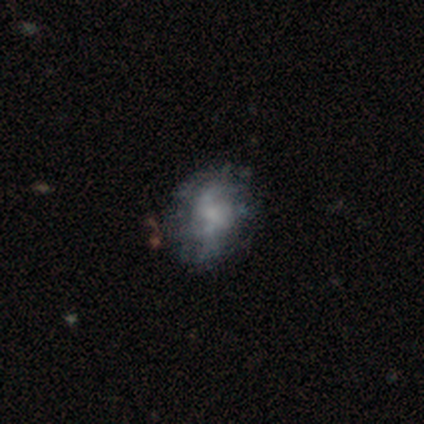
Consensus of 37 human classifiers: Morphology: type=featured or disk (70%); edge-on=no (100%); bar=no (69%); spiral arms=no (54%); bulge=small (35%, tied with none); merging=none (62%).